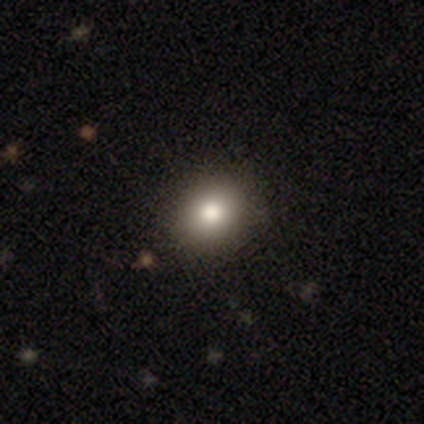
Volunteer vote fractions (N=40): Q: Smooth or featured?
A: smooth (80%); runner-up: featured or disk (10%)
Q: How rounded?
A: round (66%); runner-up: in between (34%)
Q: Merging?
A: none (92%); runner-up: minor disturbance (8%)